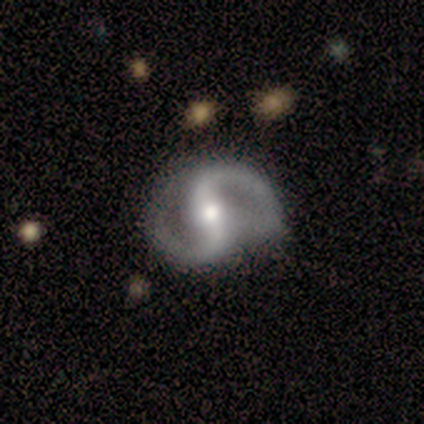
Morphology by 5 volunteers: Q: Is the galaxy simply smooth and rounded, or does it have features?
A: featured or disk — 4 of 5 (80%).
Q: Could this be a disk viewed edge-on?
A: no — 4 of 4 (100%).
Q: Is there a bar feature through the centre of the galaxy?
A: strong — 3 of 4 (75%).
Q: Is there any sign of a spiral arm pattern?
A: yes — 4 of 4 (100%).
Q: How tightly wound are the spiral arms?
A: medium — 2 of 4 (50%, tied with loose).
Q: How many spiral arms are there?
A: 2 — 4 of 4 (100%).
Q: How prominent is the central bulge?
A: large — 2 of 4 (50%).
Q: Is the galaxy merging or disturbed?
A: none — 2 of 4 (50%).